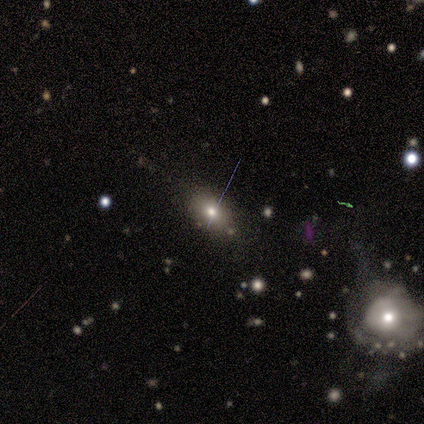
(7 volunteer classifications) smooth_or_featured: smooth (p=0.71) [alt: star or artifact p=0.29]
how_rounded: in between (p=1.00)
merging: none (p=1.00)